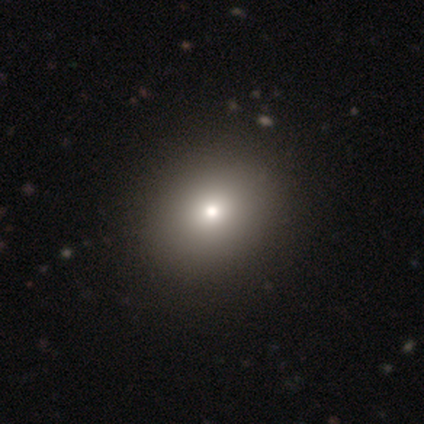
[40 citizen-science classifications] Smooth or featured? smooth (75%)
How rounded? round (73%)
Merging? none (58%)